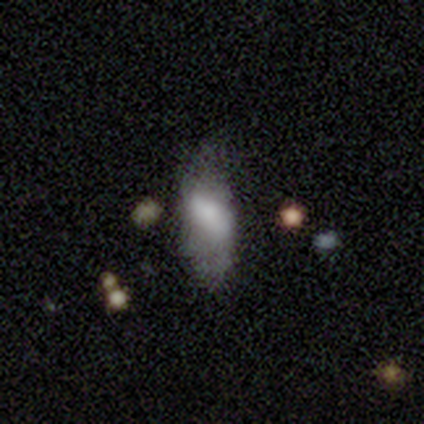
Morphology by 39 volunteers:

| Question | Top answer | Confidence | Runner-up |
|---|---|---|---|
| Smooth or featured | smooth | 67% | featured or disk (28%) |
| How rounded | in between | 92% | cigar-shaped (8%) |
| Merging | none | 49% | minor disturbance (32%) |